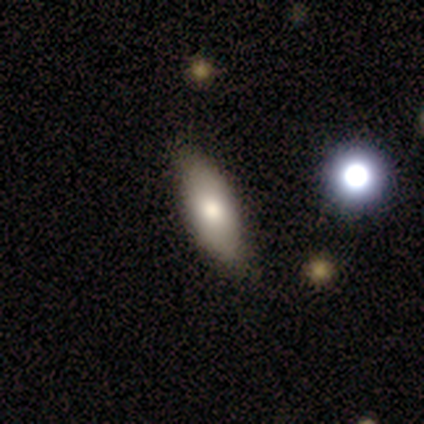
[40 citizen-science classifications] smooth_or_featured: smooth (p=0.72) [alt: featured or disk p=0.23]
how_rounded: in between (p=0.86) [alt: cigar-shaped p=0.14]
merging: none (p=0.66) [alt: minor disturbance p=0.05]